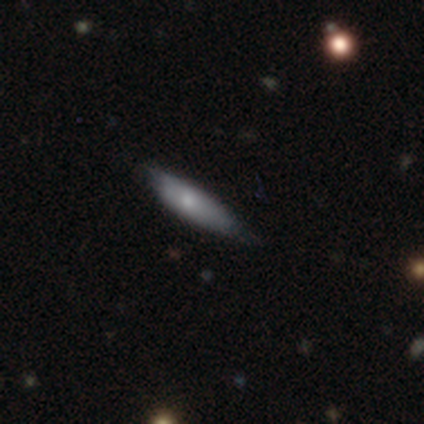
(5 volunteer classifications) A smooth galaxy with no disk features (80%) that is in between round and cigar-shaped (50%, tied with cigar-shaped).

Vote fractions:
- Smooth or featured? smooth: 80% / featured or disk: 20% / star or artifact: 0%
- How rounded? in between: 50% (tied) / cigar-shaped: 50% (tied) / round: 0%
- Merging? none: 60% / minor disturbance: 40% / major disturbance: 0% / merger: 0%